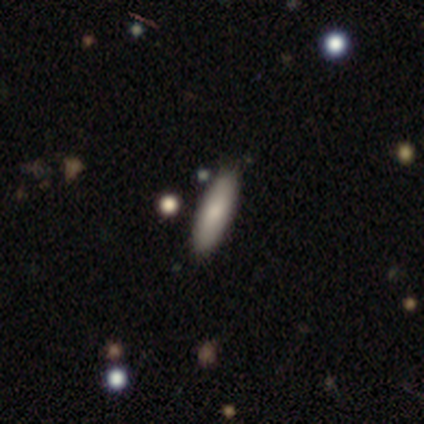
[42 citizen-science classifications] Morphology: type=smooth (76%); roundness=cigar-shaped (56%); merging=none (93%).